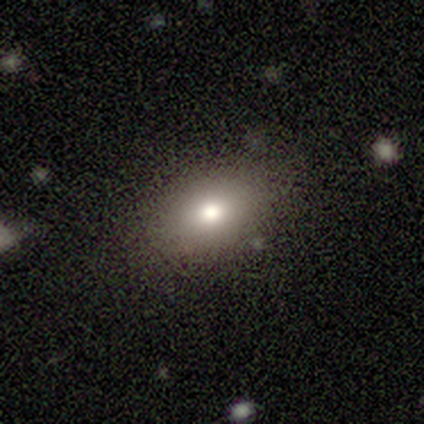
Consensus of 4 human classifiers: This appears to be a smooth galaxy with no disk features (75%) that is in between round and cigar-shaped (100%). Merging: none (75%).